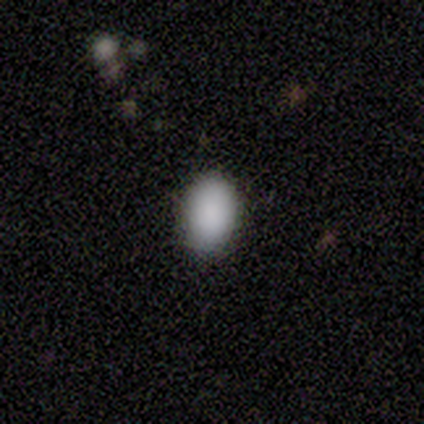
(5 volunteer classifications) smooth 100%, featured or disk 0%, star or artifact 0%. Down the decision tree: how rounded — in between (80%); merging — none (80%).